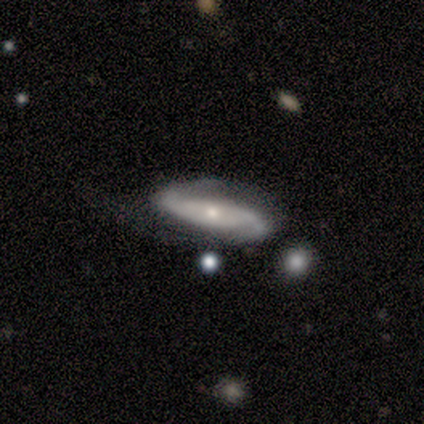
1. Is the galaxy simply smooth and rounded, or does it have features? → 82% featured or disk, 10% smooth, 8% star or artifact.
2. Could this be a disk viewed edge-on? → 100% no, 0% yes.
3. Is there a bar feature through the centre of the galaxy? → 38% no, 34% weak, 28% strong.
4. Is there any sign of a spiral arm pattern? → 97% yes, 3% no.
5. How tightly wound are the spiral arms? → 65% loose, 32% medium, 3% tight.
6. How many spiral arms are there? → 90% 2, 10% can't tell, 0% 1, 0% 3, 0% 4, 0% more than 4.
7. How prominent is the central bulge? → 62% small, 38% moderate, 0% dominant, 0% large, 0% none.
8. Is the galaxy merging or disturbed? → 42% none, 31% major disturbance, 28% minor disturbance, 0% merger.